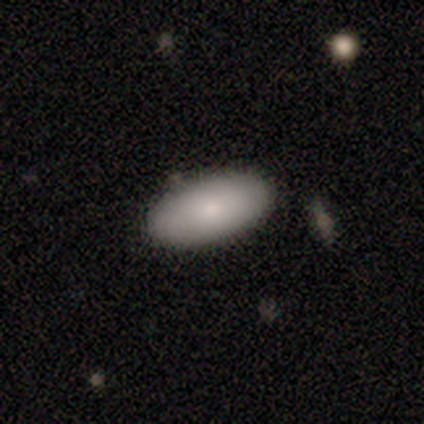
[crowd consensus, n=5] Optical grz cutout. It shows a smooth galaxy with no disk features (100%) that is in between round and cigar-shaped (100%). Merging: none (100%).